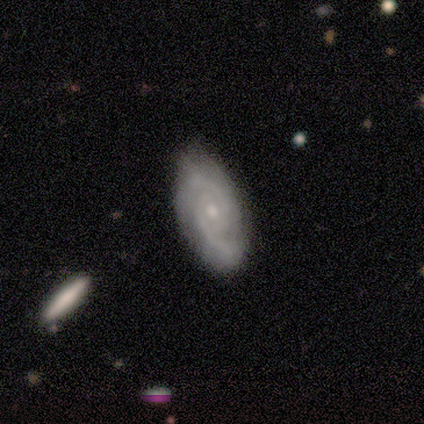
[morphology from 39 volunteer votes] featured or disk 90%, smooth 8%, star or artifact 3%. Down the decision tree: edge-on disk — no (97%); bar — no (71%); spiral arms — yes (97%); spiral arm count — 2 (76%); spiral winding — medium (52%); bulge size — small (74%); merging — none (63%).